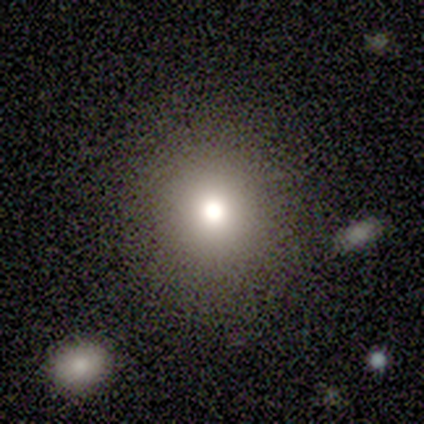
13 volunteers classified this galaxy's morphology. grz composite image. It shows a smooth galaxy with no disk features (85%) that is round (91%). Merging: none (92%).